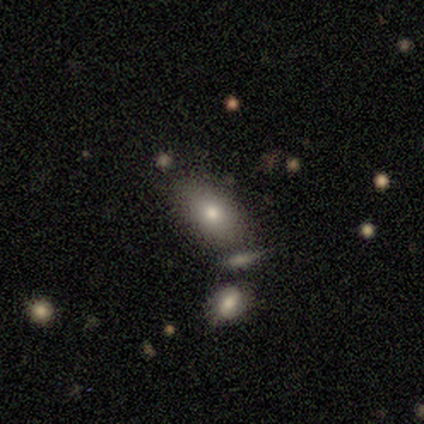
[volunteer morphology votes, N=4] Overall: smooth (50%, tied with featured or disk). How rounded: in between (100%). Merging: none (50%; major disturbance 25%).